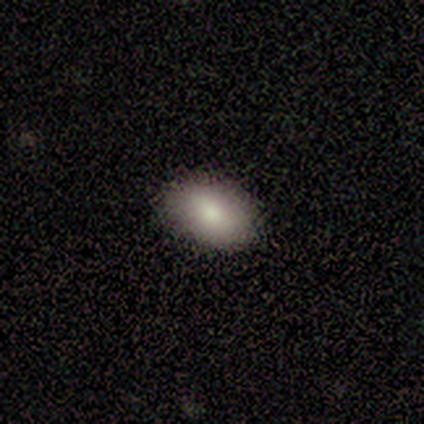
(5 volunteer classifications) Overall: smooth (100%). How rounded: in between (100%). Merging: none (100%).